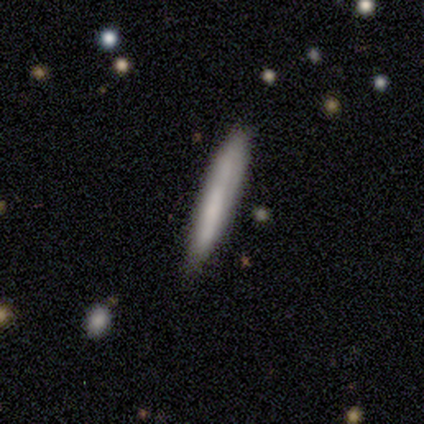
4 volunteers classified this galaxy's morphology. Smooth or featured? 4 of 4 (100%) said smooth. How rounded? 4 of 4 (100%) said cigar-shaped. Merging? 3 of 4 (75%) said none.